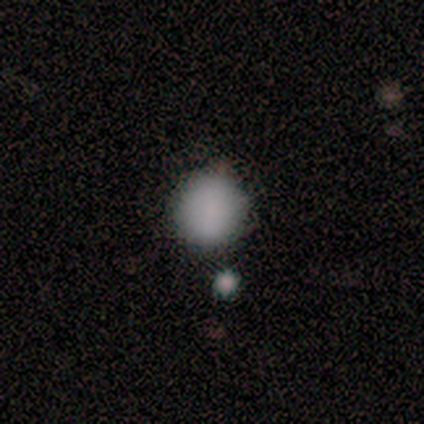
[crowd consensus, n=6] Smooth or featured? smooth (100%)
How rounded? round (100%)
Merging? none (100%)